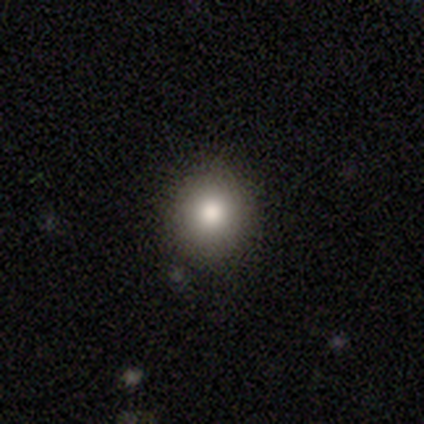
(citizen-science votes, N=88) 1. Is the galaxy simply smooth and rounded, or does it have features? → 86% smooth, 7% featured or disk, 7% star or artifact.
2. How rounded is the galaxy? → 95% round, 5% in between, 0% cigar-shaped.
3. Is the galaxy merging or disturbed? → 85% none, 11% minor disturbance, 2% major disturbance, 1% merger.